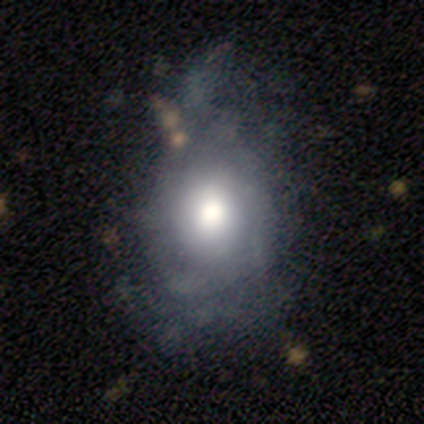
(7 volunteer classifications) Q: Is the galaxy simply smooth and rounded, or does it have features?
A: featured or disk — 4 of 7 (57%).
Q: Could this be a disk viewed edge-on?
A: no — 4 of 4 (100%).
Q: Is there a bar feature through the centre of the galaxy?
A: no — 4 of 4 (100%).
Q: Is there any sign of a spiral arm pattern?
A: no — 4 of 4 (100%).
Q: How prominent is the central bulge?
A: large — 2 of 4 (50%, tied with moderate).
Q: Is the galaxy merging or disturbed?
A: minor disturbance — 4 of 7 (57%).